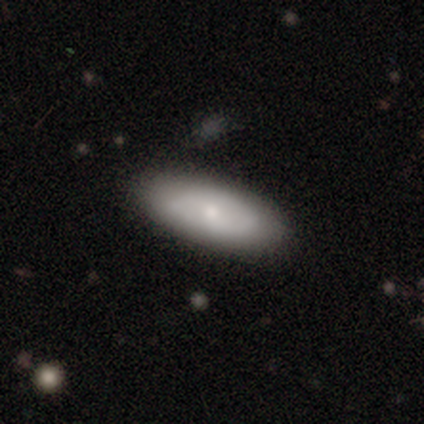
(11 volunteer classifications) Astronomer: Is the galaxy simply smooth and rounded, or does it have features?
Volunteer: smooth — 64%.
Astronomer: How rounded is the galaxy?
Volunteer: in between — 100%.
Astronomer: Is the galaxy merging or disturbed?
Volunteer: none — 64%.